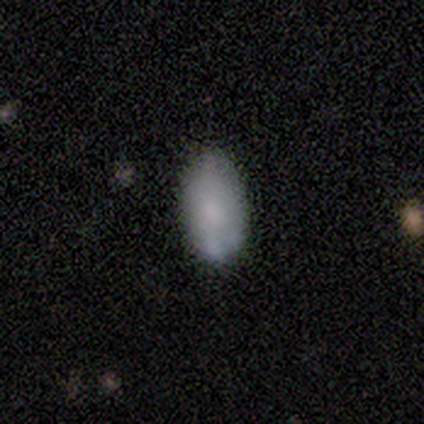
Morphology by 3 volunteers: Smooth or featured? smooth (67%)
How rounded? in between (100%)
Merging? none (50%, tied with minor disturbance)